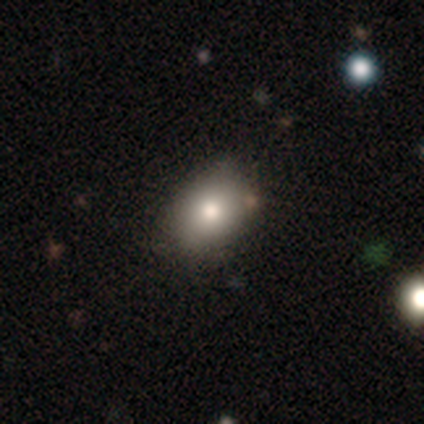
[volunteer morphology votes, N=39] Smooth or featured?
  - smooth: 79% *
  - featured or disk: 15%
  - star or artifact: 5%
How rounded?
  - in between: 81% *
  - round: 16%
  - cigar-shaped: 3%
Merging?
  - none: 89% *
  - minor disturbance: 11%
  - major disturbance: 0%
  - merger: 0%